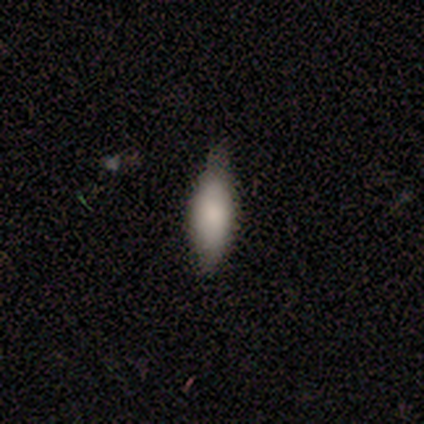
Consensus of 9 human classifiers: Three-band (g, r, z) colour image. It shows a smooth galaxy with no disk features (78%) that is in between round and cigar-shaped (71%). Merging: minor disturbance (57%).